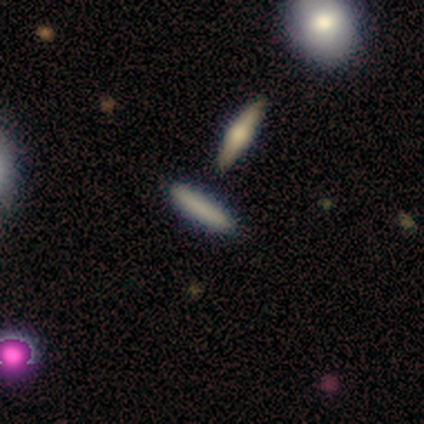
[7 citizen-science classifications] This appears to be a smooth galaxy with no disk features (86%) that is cigar-shaped (100%). Merging: none (86%).